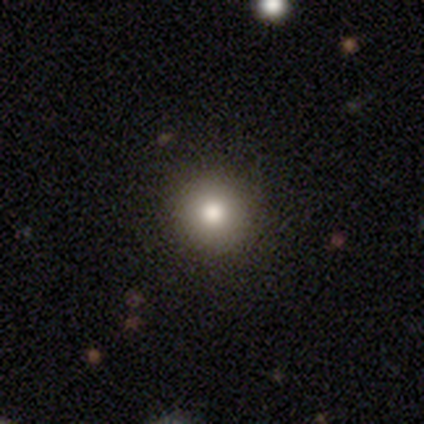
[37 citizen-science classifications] smooth-or-featured: smooth: 68% | star or artifact: 22% | featured or disk: 11%
  how-rounded: round: 100% | in between: 0% | cigar-shaped: 0%
  merging: none: 97% | minor disturbance: 3% | major disturbance: 0% | merger: 0%